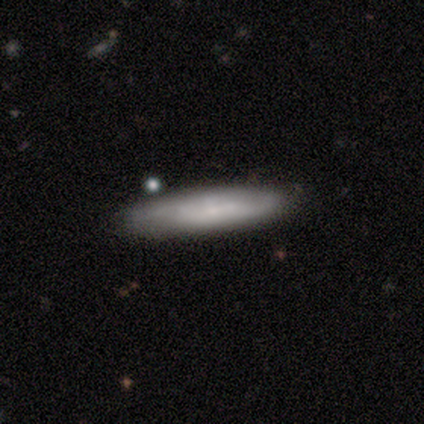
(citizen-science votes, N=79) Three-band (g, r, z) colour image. It shows a smooth galaxy with no disk features (65%) that is cigar-shaped (86%). Merging: none (43%).